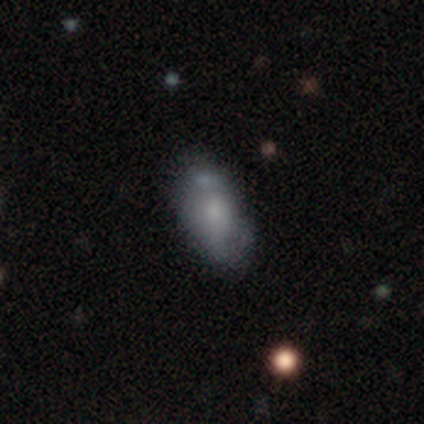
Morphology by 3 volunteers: Overall: smooth (67%; featured or disk 33%). How rounded: in between (100%). Merging: none (33%, tied with minor disturbance and merger).